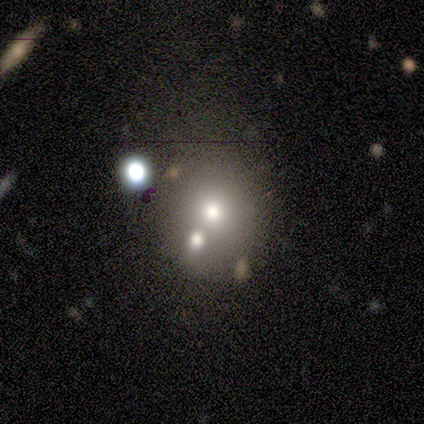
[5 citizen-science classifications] A smooth galaxy with no disk features (60%) that is round (67%).

Vote fractions:
- Smooth or featured? smooth: 60% / featured or disk: 20% / star or artifact: 20%
- How rounded? round: 67% / in between: 33% / cigar-shaped: 0%
- Merging? none: 50% / minor disturbance: 25% / major disturbance: 25% / merger: 0%